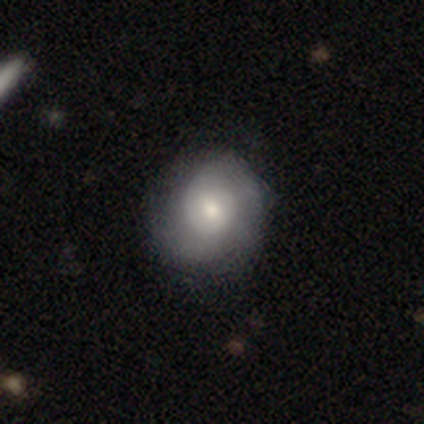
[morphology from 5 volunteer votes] This is likely a featured or disk galaxy (60%). It is clearly not viewed edge-on (100%). Bar: likely no (67%). Spiral arm pattern: likely yes (67%). Spiral arm count: possibly 3 (50%, tied with can't tell). Spiral winding: possibly tight (50%, tied with medium). Central bulge: likely moderate (67%). Merging: clearly none (80%).